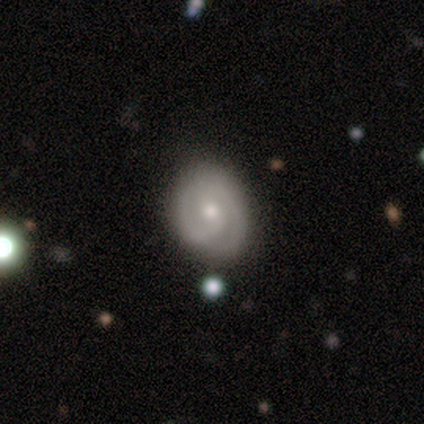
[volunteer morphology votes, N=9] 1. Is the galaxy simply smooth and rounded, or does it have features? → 89% featured or disk, 11% star or artifact, 0% smooth.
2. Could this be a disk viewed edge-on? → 100% no, 0% yes.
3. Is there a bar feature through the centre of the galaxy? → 75% no, 25% strong, 0% weak.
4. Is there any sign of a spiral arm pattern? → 88% yes, 12% no.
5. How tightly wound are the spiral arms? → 57% tight, 29% medium, 14% loose.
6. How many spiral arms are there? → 71% 2, 14% 1, 14% can't tell, 0% 3, 0% 4, 0% more than 4.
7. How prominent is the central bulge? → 75% moderate, 12% small, 12% none, 0% dominant, 0% large.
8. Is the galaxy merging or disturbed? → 100% none, 0% minor disturbance, 0% major disturbance, 0% merger.